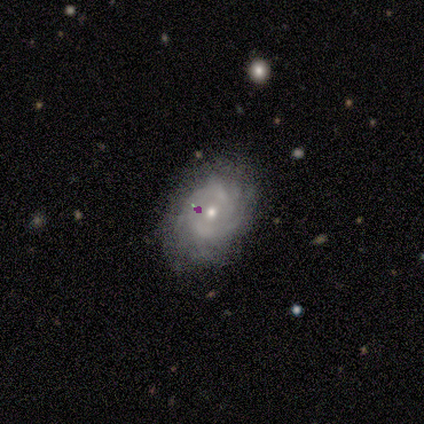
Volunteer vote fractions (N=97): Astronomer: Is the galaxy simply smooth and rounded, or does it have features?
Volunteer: featured or disk — 86%.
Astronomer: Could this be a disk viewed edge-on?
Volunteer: no — 98%.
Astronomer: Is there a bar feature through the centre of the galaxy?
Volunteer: no — 74%.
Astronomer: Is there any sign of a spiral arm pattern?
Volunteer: yes — 95%.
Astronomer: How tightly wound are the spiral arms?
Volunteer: tight — 69%.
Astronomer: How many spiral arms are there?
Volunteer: can't tell — 29% (runner-up: 2, 26%).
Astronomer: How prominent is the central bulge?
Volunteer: moderate — 54% (runner-up: small, 44%).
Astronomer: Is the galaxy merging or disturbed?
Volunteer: none — 66%.